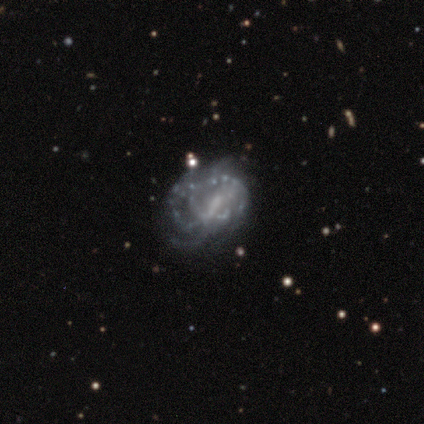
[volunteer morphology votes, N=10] Smooth or featured? 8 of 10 (80%) said featured or disk. Edge-on disk? 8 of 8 (100%) said no. Bar? 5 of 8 (62%) said weak. Spiral arms? 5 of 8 (62%) said yes. Spiral winding? 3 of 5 (60%) said tight. Spiral arm count? 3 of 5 (60%) said can't tell. Bulge size? 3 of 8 (38%, tied with small) said moderate. Merging? 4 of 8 (50%) said major disturbance.